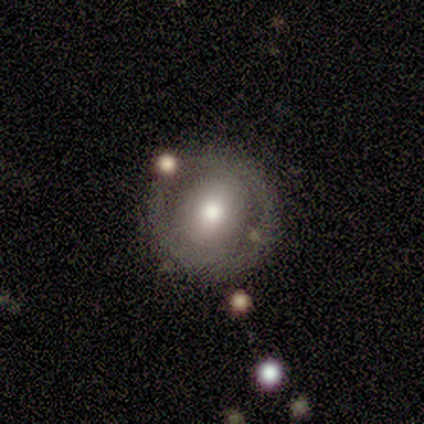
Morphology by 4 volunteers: A smooth galaxy with no disk features (75%) that is in between round and cigar-shaped (67%).

Vote fractions:
- Smooth or featured? smooth: 75% / featured or disk: 25% / star or artifact: 0%
- How rounded? in between: 67% / round: 33% / cigar-shaped: 0%
- Merging? none: 100% / minor disturbance: 0% / major disturbance: 0% / merger: 0%